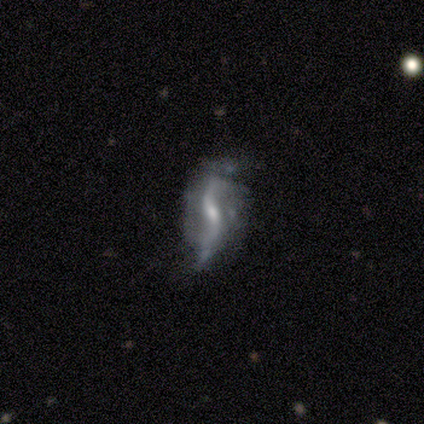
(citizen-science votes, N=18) A featured or disk galaxy (83%) with a strong bar (42%), 2 (91%) loose (91%) spiral arms (92%) and a moderate central bulge (50%, tied with small).

Vote fractions:
- Smooth or featured? featured or disk: 83% / star or artifact: 11% / smooth: 6%
- Edge-on disk? no: 80% / yes: 20%
- Bar? strong: 42% / no: 33% / weak: 25%
- Spiral arms? yes: 92% / no: 8%
- Spiral winding? loose: 91% / tight: 9% / medium: 0%
- Spiral arm count? 2: 91% / can't tell: 9% / 1: 0% / 3: 0% / 4: 0% / more than 4: 0%
- Bulge size? moderate: 50% (tied) / small: 50% (tied) / dominant: 0% / large: 0% / none: 0%
- Merging? minor disturbance: 44% / none: 31% / major disturbance: 19% / merger: 6%